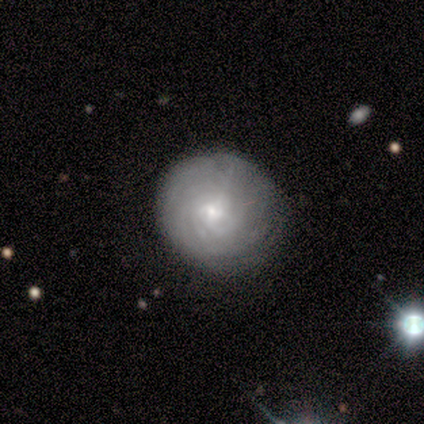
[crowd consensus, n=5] smooth_or_featured: featured or disk (p=0.80) [alt: smooth p=0.20]
disk_edge_on: no (p=1.00)
bar: weak (p=0.50) [tied with: no p=0.50]
has_spiral_arms: yes (p=1.00)
spiral_winding: tight (p=0.75) [alt: medium p=0.25]
spiral_arm_count: more than 4 (p=0.75) [alt: can't tell p=0.25]
bulge_size: moderate (p=0.50) [tied with: small p=0.50]
merging: none (p=0.80) [alt: major disturbance p=0.20]